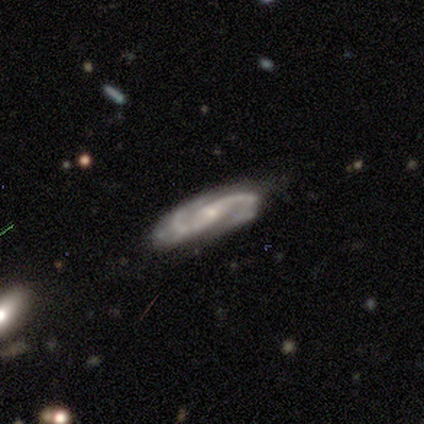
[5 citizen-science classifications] Volunteers were most divided on "spiral winding" (2-way tie): tight: 50%, loose: 50%, medium: 0%. More confident: edge-on disk — no (100%); spiral arms — yes (100%); smooth or featured — featured or disk (80%); spiral arm count — 2 (75%); bulge size — small (75%); merging — none (75%); bar — weak (50%).